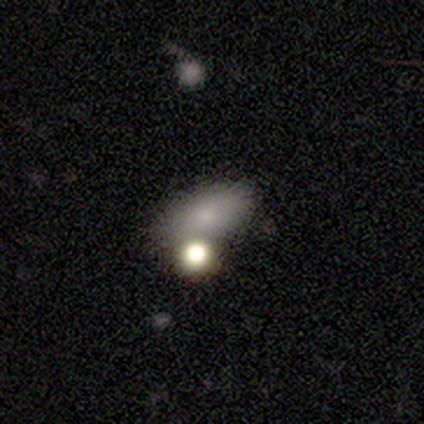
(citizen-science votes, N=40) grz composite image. It shows a smooth galaxy with no disk features (68%) that is in between round and cigar-shaped (93%). Merging: none (59%).